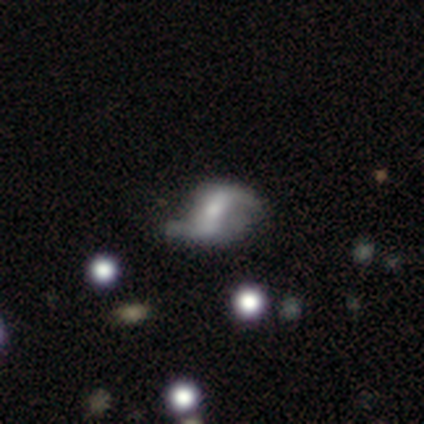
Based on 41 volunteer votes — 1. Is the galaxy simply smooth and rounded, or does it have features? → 93% featured or disk, 5% smooth, 2% star or artifact.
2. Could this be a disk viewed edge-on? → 95% no, 5% yes.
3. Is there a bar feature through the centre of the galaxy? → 44% strong, 39% weak, 17% no.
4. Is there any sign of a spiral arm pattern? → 83% yes, 17% no.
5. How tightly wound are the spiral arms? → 87% loose, 13% medium, 0% tight.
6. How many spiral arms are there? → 97% 2, 3% 1, 0% 3, 0% 4, 0% more than 4, 0% can't tell.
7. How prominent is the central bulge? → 44% small, 31% moderate, 19% none, 6% large, 0% dominant.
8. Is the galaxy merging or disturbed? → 55% none, 30% minor disturbance, 12% major disturbance, 2% merger.